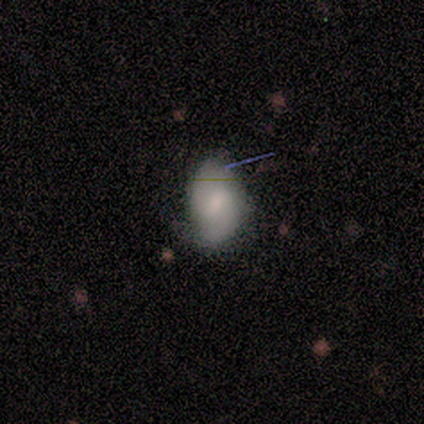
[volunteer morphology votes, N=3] Smooth or featured?
  - featured or disk: 67% *
  - star or artifact: 33%
  - smooth: 0%
Edge-on disk?
  - no: 100% *
  - yes: 0%
Bar?
  - weak: 100% *
  - strong: 0%
  - no: 0%
Spiral arms?
  - yes: 100% *
  - no: 0%
Spiral winding?
  - tight: 50% * (tied)
  - medium: 50% * (tied)
  - loose: 0%
Spiral arm count?
  - 2: 100% *
  - 1: 0%
  - 3: 0%
  - 4: 0%
  - more than 4: 0%
  - can't tell: 0%
Bulge size?
  - small: 50% * (tied)
  - none: 50% * (tied)
  - dominant: 0%
  - large: 0%
  - moderate: 0%
Merging?
  - none: 50% * (tied)
  - major disturbance: 50% * (tied)
  - minor disturbance: 0%
  - merger: 0%